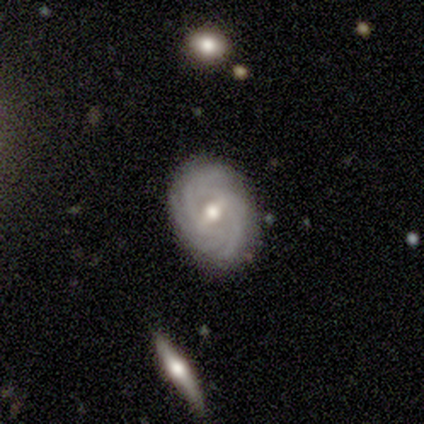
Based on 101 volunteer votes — Overall: featured or disk (91%). Edge-on disk: no (100%). Bar: weak (63%; strong 26%). Spiral arms: yes (97%). Spiral arm count: 3 (28%; 4 27%). Spiral winding: tight (71%). Bulge size: moderate (82%). Merging: none (82%).